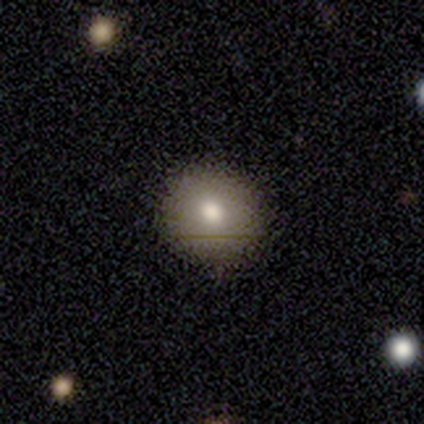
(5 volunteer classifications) Smooth or featured? 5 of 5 (100%) said smooth. How rounded? 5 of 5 (100%) said round. Merging? 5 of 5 (100%) said none.